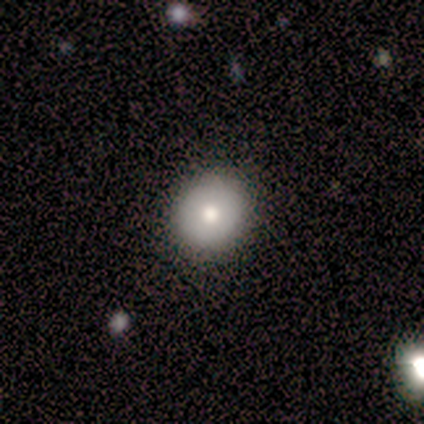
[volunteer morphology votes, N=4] Smooth or featured? 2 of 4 (50%) said smooth. How rounded? 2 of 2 (100%) said round. Merging? 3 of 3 (100%) said none.